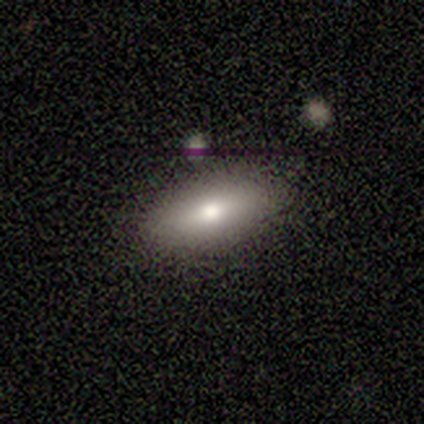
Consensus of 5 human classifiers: Q: Smooth or featured?
A: smooth (80%); runner-up: featured or disk (20%)
Q: How rounded?
A: in between (75%); runner-up: cigar-shaped (25%)
Q: Merging?
A: none (80%); runner-up: major disturbance (20%)